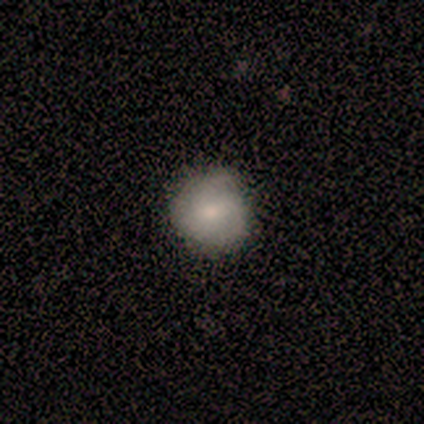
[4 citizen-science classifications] Q: Smooth or featured?
A: smooth (75%); runner-up: star or artifact (25%)
Q: How rounded?
A: round (67%); runner-up: in between (33%)
Q: Merging?
A: none (67%); runner-up: minor disturbance (33%)